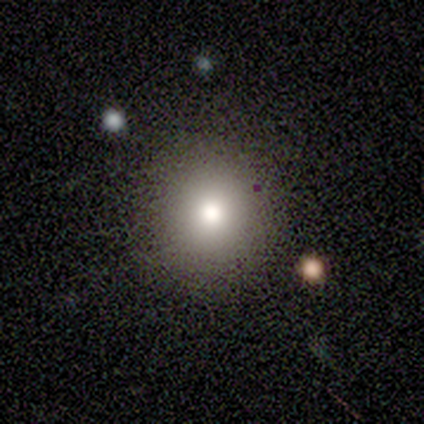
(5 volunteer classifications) smooth 80%, featured or disk 20%, star or artifact 0%. Down the decision tree: how rounded — round (100%); merging — none (100%).